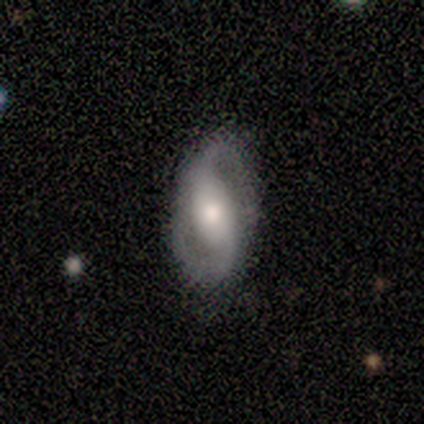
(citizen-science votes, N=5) Smooth or featured? 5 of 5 (100%) said featured or disk. Edge-on disk? 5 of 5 (100%) said no. Bar? 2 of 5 (40%, tied with no) said strong. Spiral arms? 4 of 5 (80%) said yes. Spiral winding? 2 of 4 (50%, tied with loose) said medium. Spiral arm count? 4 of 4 (100%) said 2. Bulge size? 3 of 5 (60%) said moderate. Merging? 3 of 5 (60%) said none.